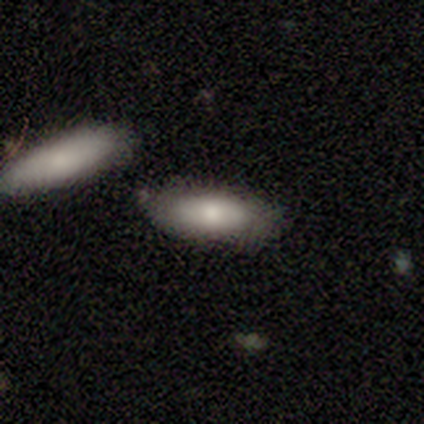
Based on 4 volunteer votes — Morphology: type=smooth (100%); roundness=in between (100%); merging=none (50%, tied with minor disturbance).